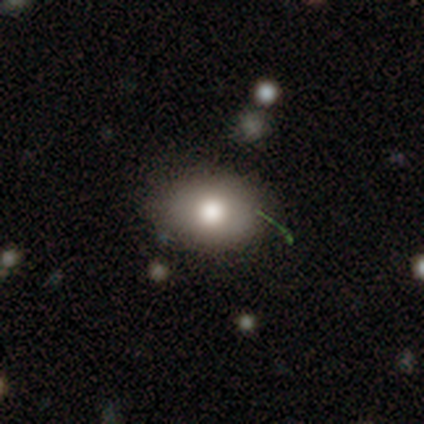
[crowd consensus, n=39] Overall: smooth (77%). How rounded: in between (70%; round 30%). Merging: none (81%).